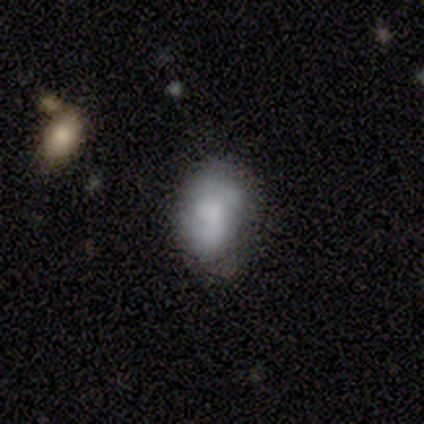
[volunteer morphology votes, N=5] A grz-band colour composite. It shows a smooth galaxy with no disk features (100%) that is in between round and cigar-shaped (100%). Merging: none (40%, tied with minor disturbance).